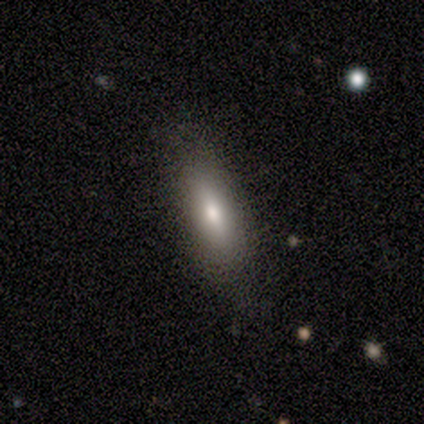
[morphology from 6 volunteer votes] Smooth or featured: smooth — 83% (featured or disk — 17%)
How rounded: in between — 60% (cigar-shaped — 40%)
Merging: none — 100%